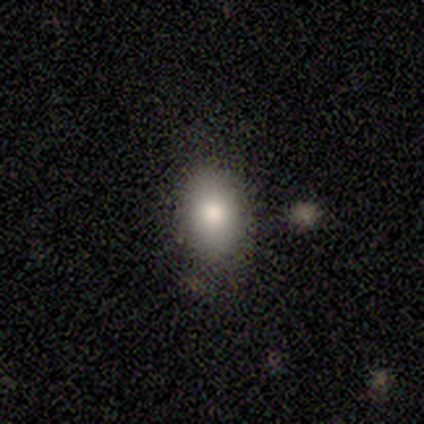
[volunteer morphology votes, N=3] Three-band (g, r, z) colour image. It shows a smooth galaxy with no disk features (100%) that is in between round and cigar-shaped (100%). Merging: none (100%).